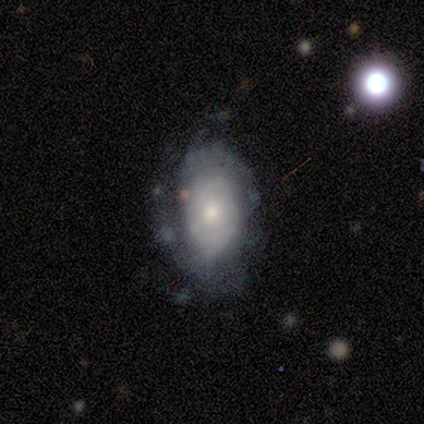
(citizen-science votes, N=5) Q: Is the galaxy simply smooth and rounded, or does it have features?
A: featured or disk — 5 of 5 (100%).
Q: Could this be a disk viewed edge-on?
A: no — 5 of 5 (100%).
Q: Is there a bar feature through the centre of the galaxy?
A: no — 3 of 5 (60%).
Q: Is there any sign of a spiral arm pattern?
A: yes — 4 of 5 (80%).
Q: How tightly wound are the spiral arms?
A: medium — 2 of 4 (50%).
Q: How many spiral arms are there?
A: can't tell — 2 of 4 (50%).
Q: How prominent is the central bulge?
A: small — 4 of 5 (80%).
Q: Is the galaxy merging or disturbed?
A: none — 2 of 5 (40%, tied with minor disturbance).